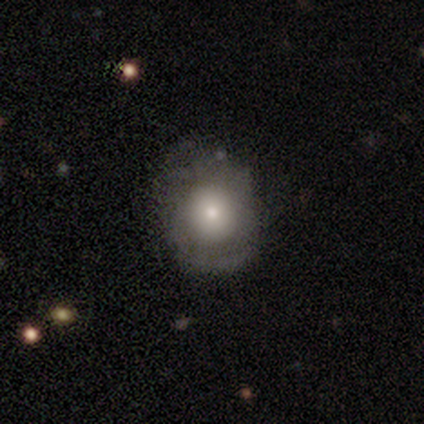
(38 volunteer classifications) smooth_or_featured: smooth (p=0.63) [alt: featured or disk p=0.34]
how_rounded: round (p=0.54) [alt: in between p=0.46]
merging: none (p=0.73) [alt: minor disturbance p=0.24]